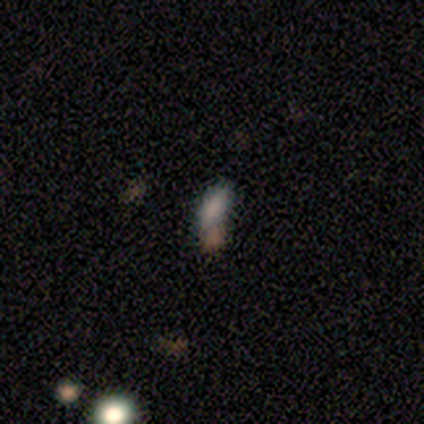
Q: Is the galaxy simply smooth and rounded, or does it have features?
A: smooth — 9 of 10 (90%).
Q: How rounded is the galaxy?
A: in between — 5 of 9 (56%).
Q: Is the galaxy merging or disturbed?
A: none — 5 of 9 (56%).